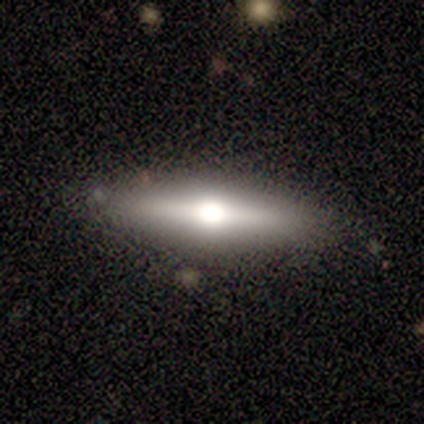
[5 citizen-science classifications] Q: Smooth or featured?
A: featured or disk (60%); runner-up: smooth (40%)
Q: Edge-on disk?
A: yes (100%)
Q: Edge-on bulge?
A: rounded (100%)
Q: Merging?
A: none (60%); runner-up: minor disturbance (20%)